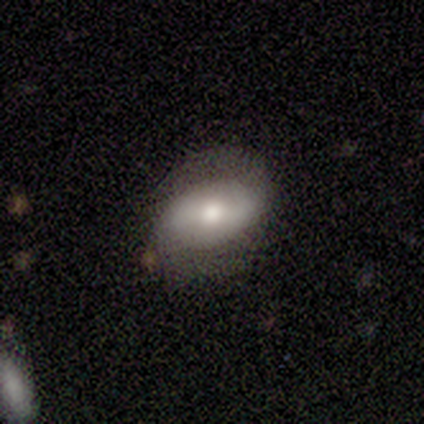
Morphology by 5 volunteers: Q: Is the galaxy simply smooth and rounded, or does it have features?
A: featured or disk — 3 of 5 (60%).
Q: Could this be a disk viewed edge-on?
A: no — 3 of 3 (100%).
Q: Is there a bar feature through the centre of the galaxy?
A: weak — 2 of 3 (67%).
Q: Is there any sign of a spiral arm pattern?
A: yes — 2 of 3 (67%).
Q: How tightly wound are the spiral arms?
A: loose — 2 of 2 (100%).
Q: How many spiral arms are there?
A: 2 — 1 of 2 (50%, tied with can't tell).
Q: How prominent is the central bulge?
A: small — 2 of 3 (67%).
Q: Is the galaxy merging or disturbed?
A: none — 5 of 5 (100%).